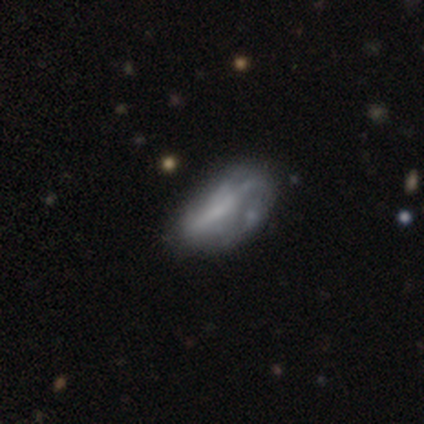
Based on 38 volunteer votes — smooth_or_featured: featured or disk (p=0.68) [alt: smooth p=0.32]
disk_edge_on: no (p=0.96) [alt: yes p=0.04]
bar: no (p=0.44) [alt: weak p=0.36]
has_spiral_arms: no (p=0.68) [alt: yes p=0.32]
bulge_size: none (p=0.48) [alt: small p=0.44]
merging: none (p=0.29) [alt: minor disturbance p=0.21]